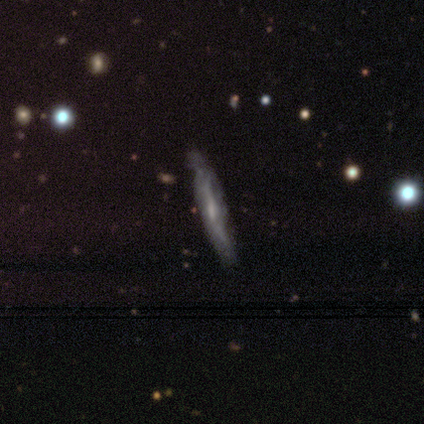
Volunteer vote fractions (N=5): Q: Smooth or featured?
A: featured or disk (60%); runner-up: smooth (40%)
Q: Edge-on disk?
A: yes (100%)
Q: Edge-on bulge?
A: boxy (33%); tied with: none (33%); rounded (33%)
Q: Merging?
A: none (60%); runner-up: minor disturbance (40%)